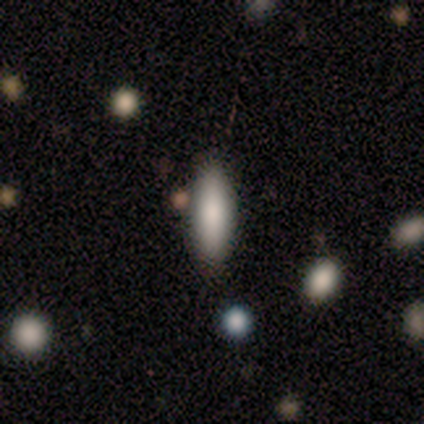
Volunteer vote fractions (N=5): This appears to be a smooth galaxy with no disk features (100%) that is in between round and cigar-shaped (60%). Merging: none (100%).